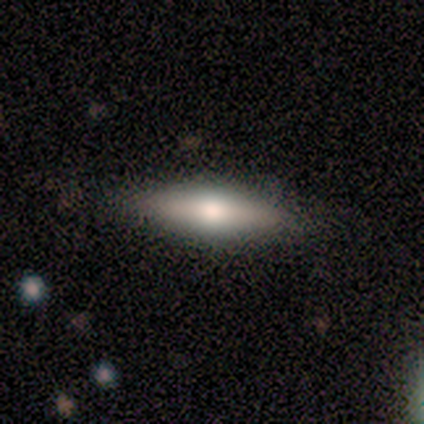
Smooth or featured? smooth (40%, tied with star or artifact)
How rounded? in between (50%, tied with cigar-shaped)
Merging? none (100%)